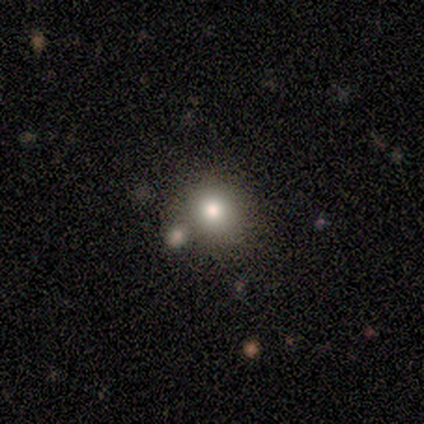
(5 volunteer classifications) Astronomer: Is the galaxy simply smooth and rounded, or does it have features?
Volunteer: smooth — 80%.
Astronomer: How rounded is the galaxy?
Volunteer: round — 100%.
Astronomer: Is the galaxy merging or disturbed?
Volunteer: none — 80%.